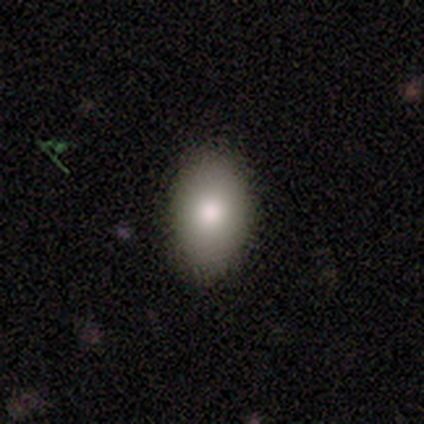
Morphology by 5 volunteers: type=smooth (100%); roundness=in between (100%); merging=none (100%).